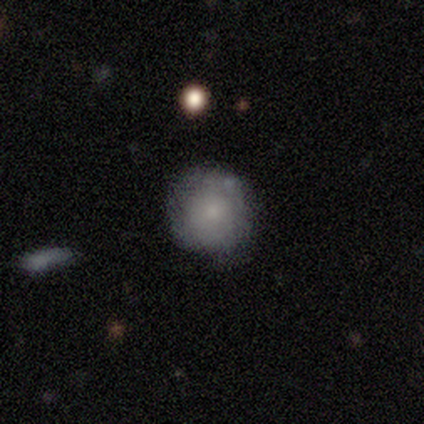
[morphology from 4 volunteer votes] Smooth or featured? smooth (100%)
How rounded? round (75%)
Merging? none (75%)